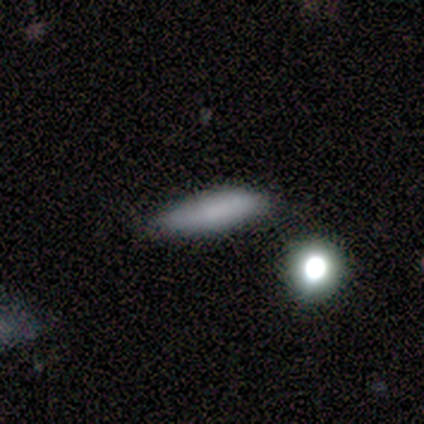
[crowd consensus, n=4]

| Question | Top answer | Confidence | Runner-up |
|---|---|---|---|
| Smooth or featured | smooth | 75% | featured or disk (25%) |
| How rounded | cigar-shaped | 100% | — |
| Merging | none | 100% | — |